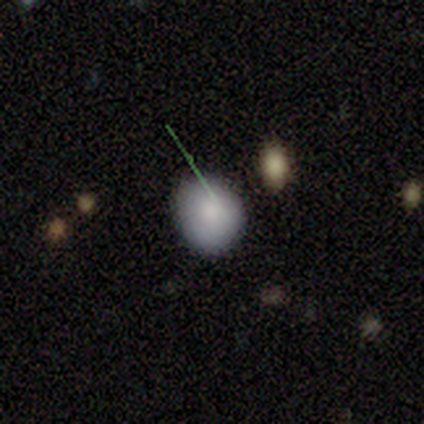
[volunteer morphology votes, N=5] smooth-or-featured: smooth: 100% | featured or disk: 0% | star or artifact: 0%
  how-rounded: in between: 60% | round: 40% | cigar-shaped: 0%
  merging: minor disturbance: 60% | none: 40% | major disturbance: 0% | merger: 0%